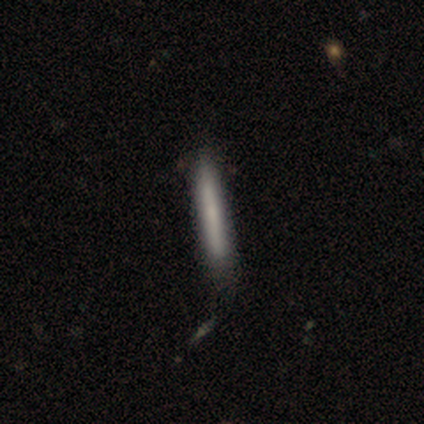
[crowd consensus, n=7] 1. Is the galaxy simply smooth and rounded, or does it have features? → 71% smooth, 29% featured or disk, 0% star or artifact.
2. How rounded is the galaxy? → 100% cigar-shaped, 0% round, 0% in between.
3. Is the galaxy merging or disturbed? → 71% none, 14% minor disturbance, 14% major disturbance, 0% merger.